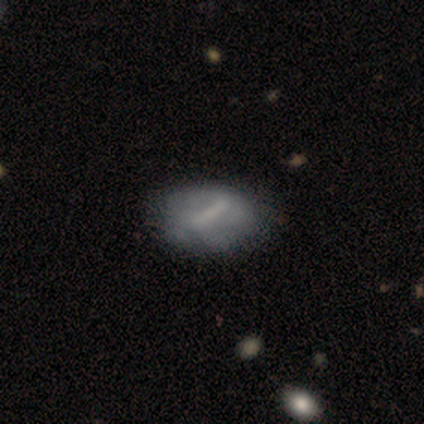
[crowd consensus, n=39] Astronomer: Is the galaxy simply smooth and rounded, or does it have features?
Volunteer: featured or disk — 64%.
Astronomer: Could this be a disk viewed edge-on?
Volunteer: no — 100%.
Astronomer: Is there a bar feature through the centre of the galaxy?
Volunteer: strong — 64%.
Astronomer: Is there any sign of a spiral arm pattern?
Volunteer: no — 84%.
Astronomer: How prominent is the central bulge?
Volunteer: none — 56%.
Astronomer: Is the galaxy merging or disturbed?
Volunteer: none — 54%.